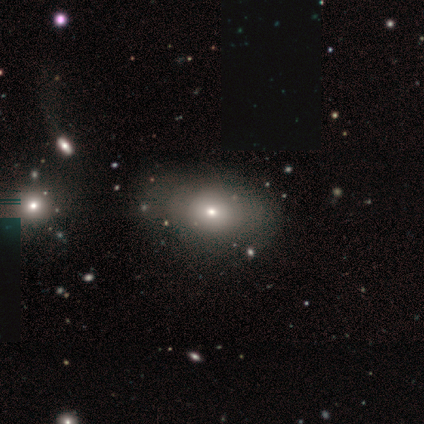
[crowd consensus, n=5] Volunteers were most divided on "smooth or featured": smooth: 60%, featured or disk: 20%, star or artifact: 20%. More confident: how rounded — in between (100%); merging — none (75%).